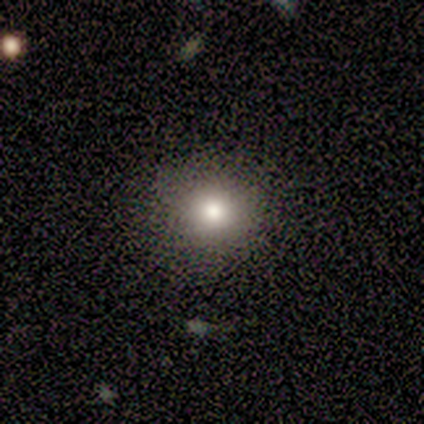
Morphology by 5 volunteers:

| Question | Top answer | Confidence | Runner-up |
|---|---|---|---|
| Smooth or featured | smooth | 100% | — |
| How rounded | in between | 60% | round (40%) |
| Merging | none | 60% | minor disturbance (40%) |